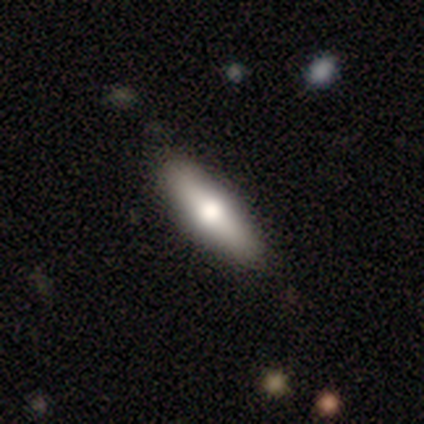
Smooth or featured? smooth (50%)
How rounded? in between (80%)
Merging? none (78%)